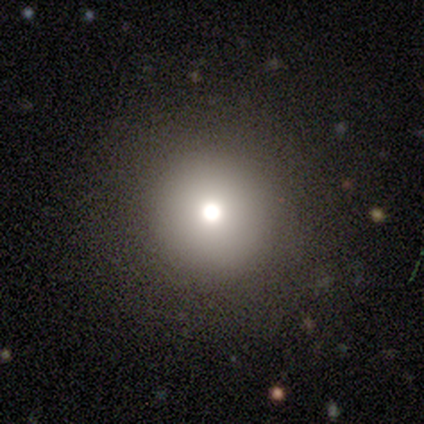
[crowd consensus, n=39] Smooth or featured? smooth (67%)
How rounded? round (88%)
Merging? none (82%)